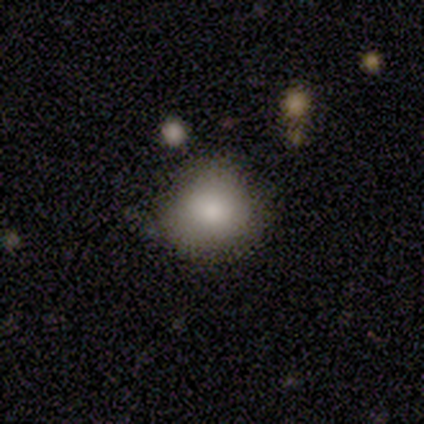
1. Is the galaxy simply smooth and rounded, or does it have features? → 83% smooth, 17% star or artifact, 0% featured or disk.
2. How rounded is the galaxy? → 80% round, 20% in between, 0% cigar-shaped.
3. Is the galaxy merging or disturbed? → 100% none, 0% minor disturbance, 0% major disturbance, 0% merger.